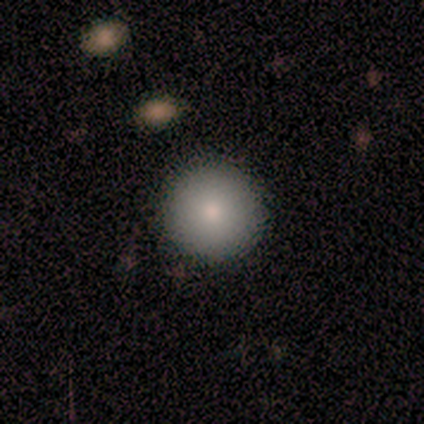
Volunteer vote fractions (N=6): Volunteers were most divided on "how rounded": round: 83%, in between: 17%, cigar-shaped: 0%. More confident: smooth or featured — smooth (100%); merging — none (83%).